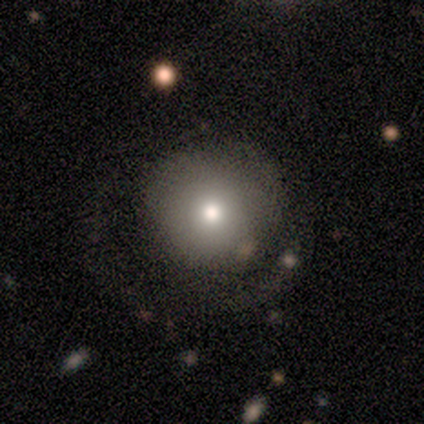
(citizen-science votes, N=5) Smooth or featured? 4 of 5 (80%) said smooth. How rounded? 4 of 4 (100%) said round. Merging? 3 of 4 (75%) said none.